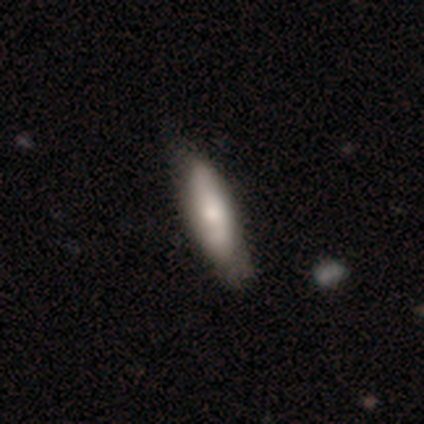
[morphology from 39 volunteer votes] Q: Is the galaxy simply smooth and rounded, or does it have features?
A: smooth — 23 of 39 (59%).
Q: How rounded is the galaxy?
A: in between — 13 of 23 (57%).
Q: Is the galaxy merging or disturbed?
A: none — 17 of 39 (44%).